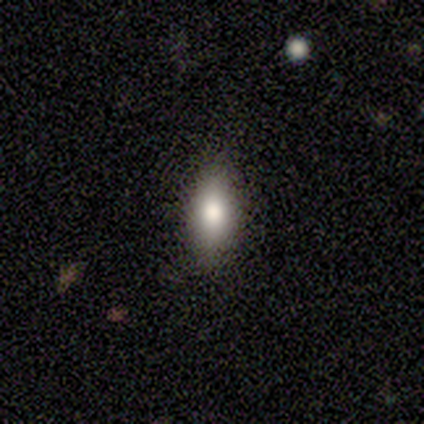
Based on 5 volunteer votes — A smooth galaxy with no disk features (100%) that is in between round and cigar-shaped (100%). Merging: none (100%).